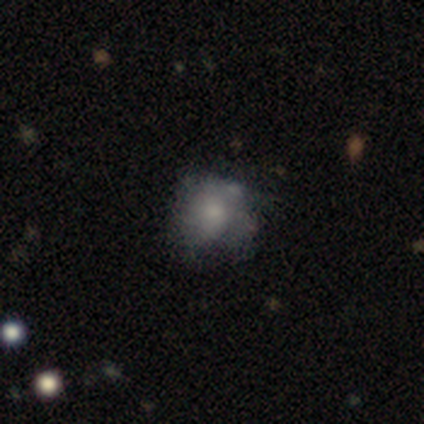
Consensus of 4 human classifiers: smooth-or-featured: featured or disk: 50% | smooth: 25% | star or artifact: 25%
  disk-edge-on: no: 100% | yes: 0%
    bar: no: 100% | strong: 0% | weak: 0%
    has-spiral-arms: yes: 100% | no: 0%
      spiral-winding: tight: 50% (tied) | loose: 50% (tied) | medium: 0%
      spiral-arm-count: 3: 50% (tied) | can't tell: 50% (tied) | 1: 0% | 2: 0% | 4: 0% | more than 4: 0%
    bulge-size: large: 50% (tied) | small: 50% (tied) | dominant: 0% | moderate: 0% | none: 0%
  merging: none: 67% | major disturbance: 33% | minor disturbance: 0% | merger: 0%